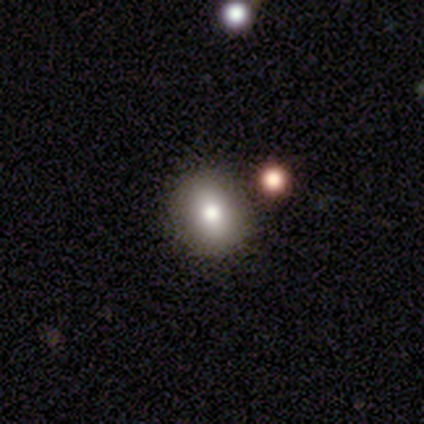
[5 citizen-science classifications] Smooth or featured? 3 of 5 (60%) said smooth. How rounded? 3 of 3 (100%) said round. Merging? 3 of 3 (100%) said none.